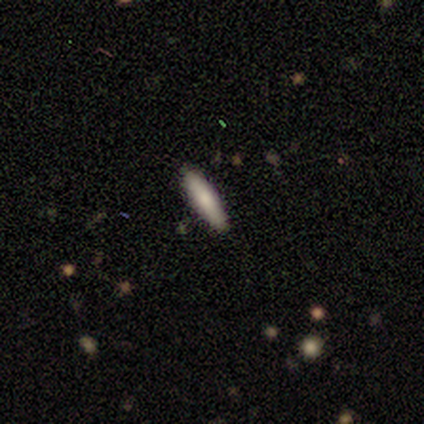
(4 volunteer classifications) Smooth or featured?
  - smooth: 100% *
  - featured or disk: 0%
  - star or artifact: 0%
How rounded?
  - in between: 50% * (tied)
  - cigar-shaped: 50% * (tied)
  - round: 0%
Merging?
  - none: 75% *
  - merger: 25%
  - minor disturbance: 0%
  - major disturbance: 0%